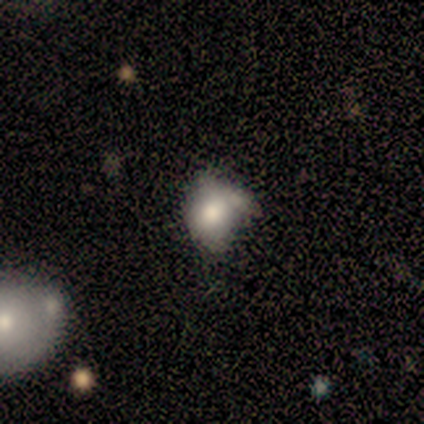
Overall: smooth (57%; star or artifact 29%). How rounded: round (50%, tied with in between). Merging: none (40%, tied with minor disturbance).